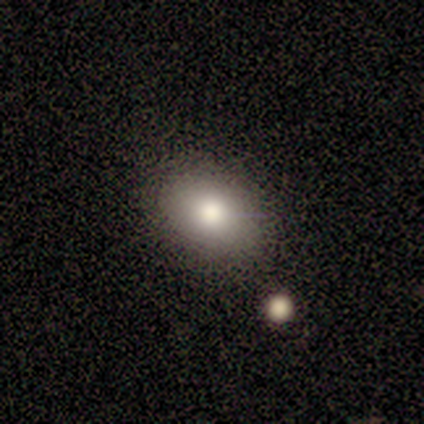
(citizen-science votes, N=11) smooth-or-featured: smooth: 64% | featured or disk: 18% | star or artifact: 18%
  how-rounded: in between: 71% | round: 29% | cigar-shaped: 0%
  merging: none: 100% | minor disturbance: 0% | major disturbance: 0% | merger: 0%